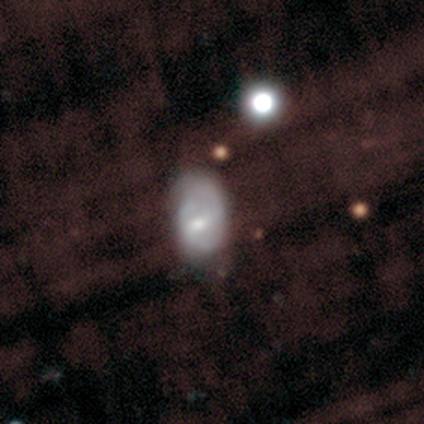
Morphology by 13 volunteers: featured or disk 54%, smooth 31%, star or artifact 15%. Down the decision tree: edge-on disk — no (100%); bar — weak (57%); spiral arms — no (57%); bulge size — small (43%); merging — none (45%, tied with minor disturbance).